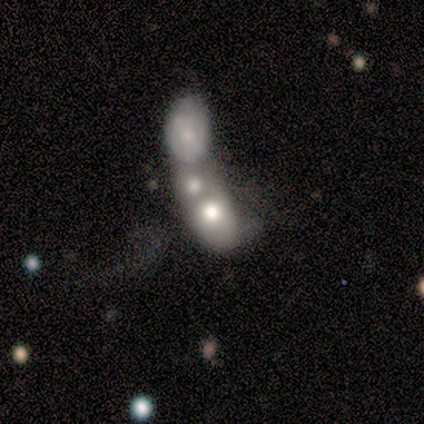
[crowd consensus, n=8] Smooth or featured: featured or disk — 75% (smooth — 25%)
Edge-on disk: no — 100%
Bar: no — 83% (weak — 17%)
Spiral arms: no — 67% (yes — 33%)
Bulge size: moderate — 67% (small — 33%)
Merging: merger — 100%